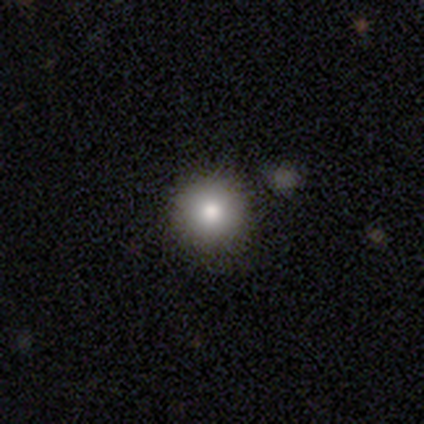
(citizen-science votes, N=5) Q: Smooth or featured?
A: smooth (100%)
Q: How rounded?
A: round (100%)
Q: Merging?
A: none (100%)